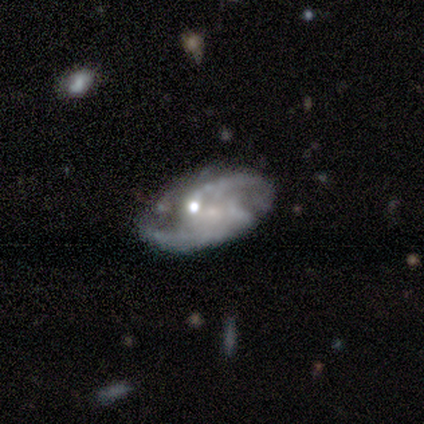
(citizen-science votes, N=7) smooth-or-featured: featured or disk: 100% | smooth: 0% | star or artifact: 0%
  disk-edge-on: no: 100% | yes: 0%
    bar: no: 71% | weak: 29% | strong: 0%
    has-spiral-arms: yes: 100% | no: 0%
      spiral-winding: loose: 57% | medium: 29% | tight: 14%
      spiral-arm-count: 2: 86% | can't tell: 14% | 1: 0% | 3: 0% | 4: 0% | more than 4: 0%
    bulge-size: small: 71% | none: 29% | dominant: 0% | large: 0% | moderate: 0%
  merging: none: 71% | major disturbance: 29% | minor disturbance: 0% | merger: 0%